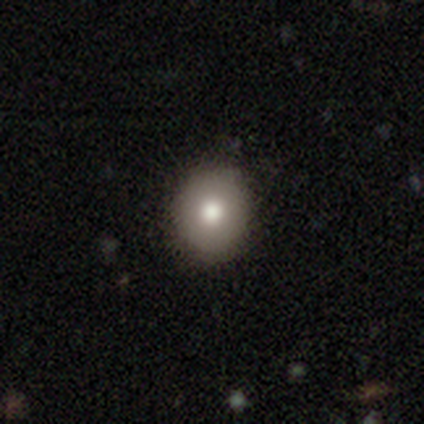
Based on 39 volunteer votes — Smooth or featured?
  - smooth: 74% *
  - featured or disk: 21%
  - star or artifact: 5%
How rounded?
  - round: 90% *
  - in between: 10%
  - cigar-shaped: 0%
Merging?
  - none: 68% *
  - minor disturbance: 8%
  - major disturbance: 0%
  - merger: 0%